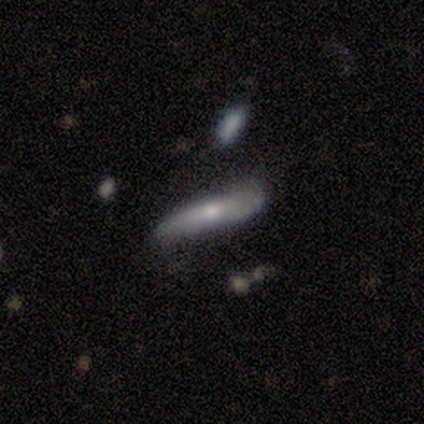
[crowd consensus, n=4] A smooth galaxy with no disk features (50%, tied with featured or disk) that is in between round and cigar-shaped (50%, tied with cigar-shaped). Merging: none (50%, tied with minor disturbance).